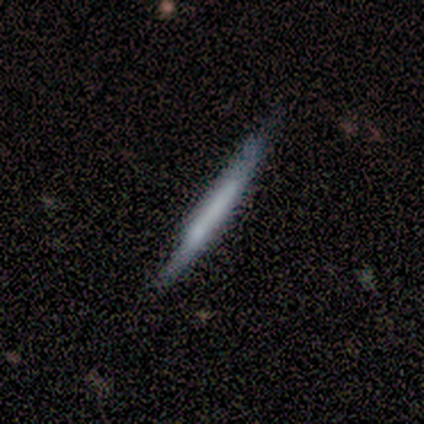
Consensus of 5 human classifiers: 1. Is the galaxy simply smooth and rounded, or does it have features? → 60% smooth, 40% featured or disk, 0% star or artifact.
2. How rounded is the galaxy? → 100% cigar-shaped, 0% round, 0% in between.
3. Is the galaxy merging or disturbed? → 80% none, 20% major disturbance, 0% minor disturbance, 0% merger.